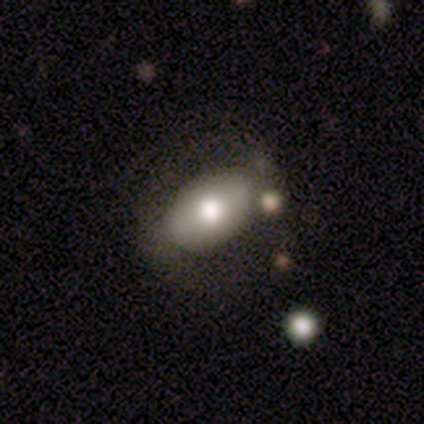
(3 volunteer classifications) smooth_or_featured: smooth (p=0.67) [alt: featured or disk p=0.33]
how_rounded: in between (p=1.00)
merging: none (p=0.33) [tied with: minor disturbance p=0.33, merger p=0.33]